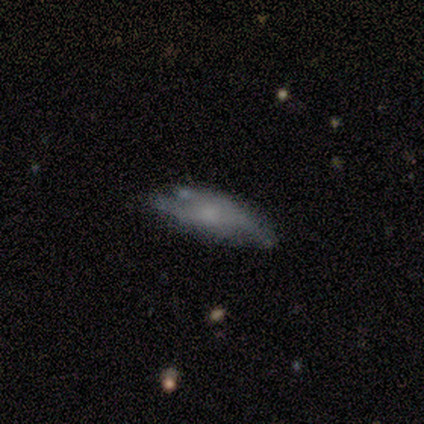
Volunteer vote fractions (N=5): featured or disk 60%, smooth 20%, star or artifact 20%. Down the decision tree: edge-on disk — no (67%); bar — no (100%); spiral arms — no (100%); bulge size — moderate (50%, tied with none); merging — minor disturbance (50%).